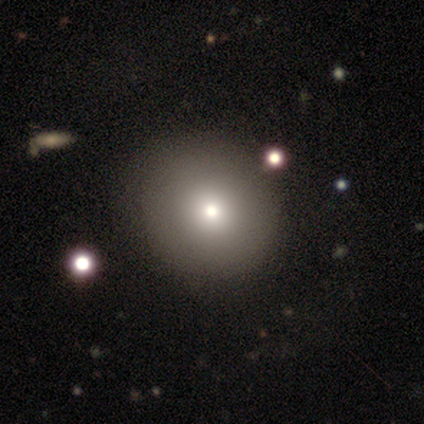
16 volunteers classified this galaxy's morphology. Overall: smooth (94%). How rounded: round (93%). Merging: none (100%).